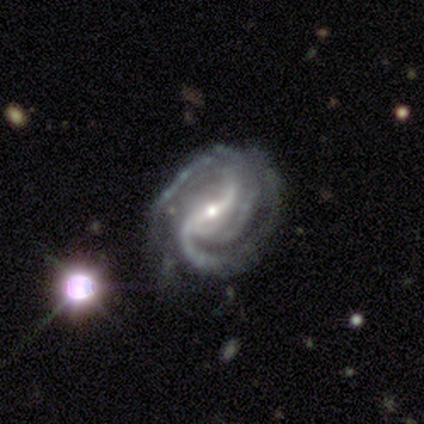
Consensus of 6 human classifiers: Overall: featured or disk (100%). Edge-on disk: no (83%). Bar: weak (80%). Spiral arms: yes (100%). Spiral arm count: 2 (60%; 3 20%). Spiral winding: medium (60%; tight 20%). Bulge size: small (100%). Merging: minor disturbance (50%; none 33%).